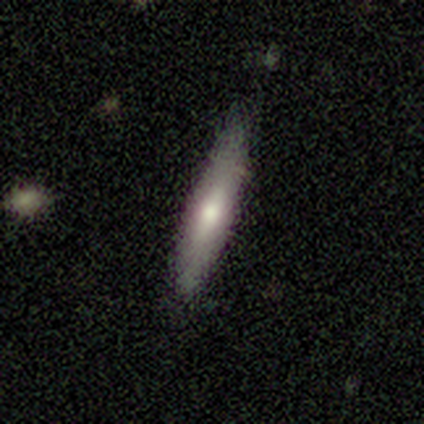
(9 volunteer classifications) Q: Smooth or featured?
A: smooth (89%); runner-up: featured or disk (11%)
Q: How rounded?
A: cigar-shaped (100%)
Q: Merging?
A: none (67%); runner-up: minor disturbance (33%)